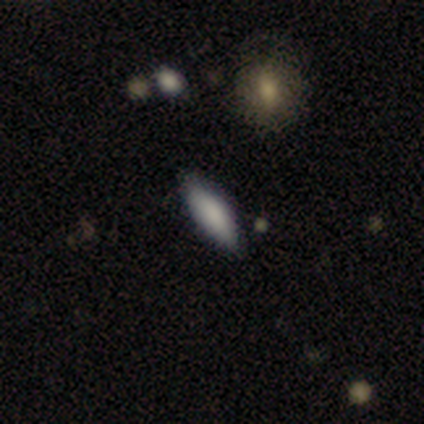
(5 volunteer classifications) Q: Smooth or featured?
A: smooth (80%); runner-up: featured or disk (20%)
Q: How rounded?
A: cigar-shaped (75%); runner-up: in between (25%)
Q: Merging?
A: none (80%); runner-up: minor disturbance (20%)